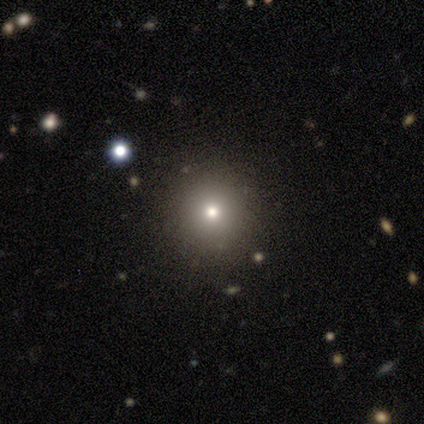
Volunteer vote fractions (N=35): A smooth galaxy with no disk features (71%) that is round (92%).

Vote fractions:
- Smooth or featured? smooth: 71% / star or artifact: 20% / featured or disk: 9%
- How rounded? round: 92% / in between: 8% / cigar-shaped: 0%
- Merging? none: 89% / minor disturbance: 7% / major disturbance: 4% / merger: 0%